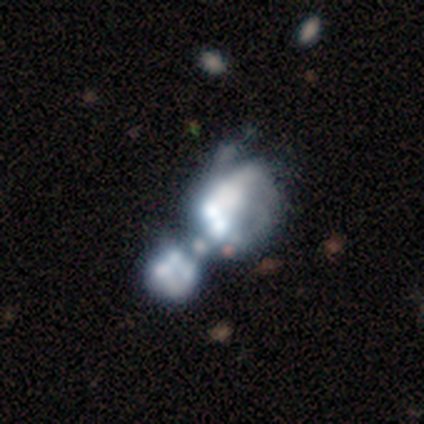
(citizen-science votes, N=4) smooth_or_featured: star or artifact (p=0.50) [alt: smooth p=0.25]